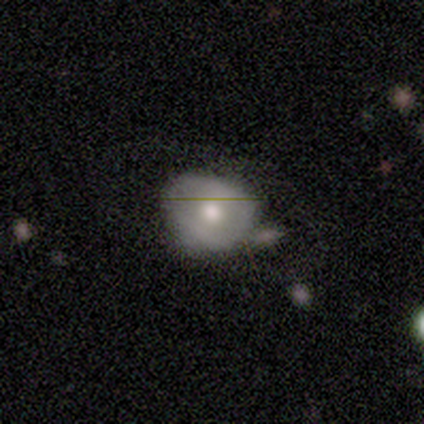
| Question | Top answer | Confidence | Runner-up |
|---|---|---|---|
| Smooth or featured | featured or disk | 60% | smooth (20%) |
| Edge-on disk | no | 100% | — |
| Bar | no | 100% | — |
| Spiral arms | no | 100% | — |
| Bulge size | moderate | 100% | — |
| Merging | minor disturbance | 75% | major disturbance (25%) |